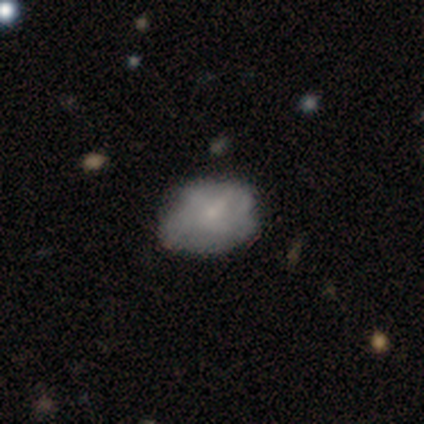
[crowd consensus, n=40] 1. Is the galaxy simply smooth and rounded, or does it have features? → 52% smooth, 38% featured or disk, 10% star or artifact.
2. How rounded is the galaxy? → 95% in between, 5% round, 0% cigar-shaped.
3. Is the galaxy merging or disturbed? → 33% none, 28% minor disturbance, 6% major disturbance, 3% merger.